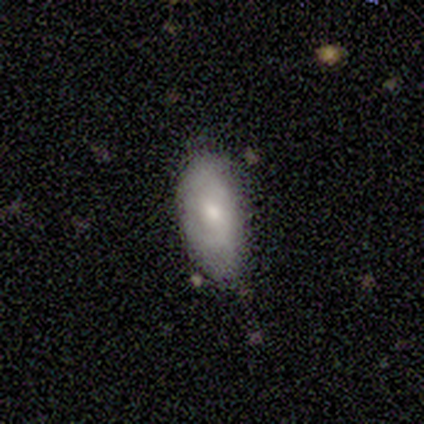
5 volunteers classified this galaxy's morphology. This is likely a smooth galaxy (60%). How rounded: clearly in between (100%). Merging: possibly minor disturbance (50%).